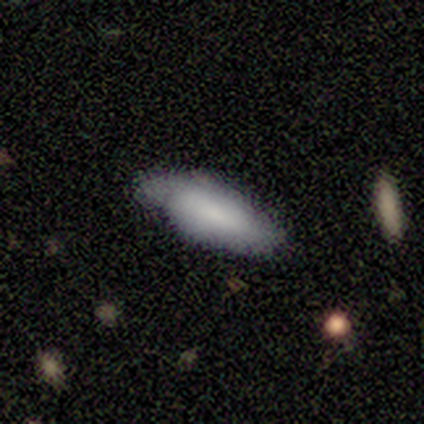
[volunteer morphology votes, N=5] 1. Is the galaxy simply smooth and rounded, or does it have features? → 60% smooth, 40% featured or disk, 0% star or artifact.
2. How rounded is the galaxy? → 67% in between, 33% cigar-shaped, 0% round.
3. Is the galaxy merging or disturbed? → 80% none, 20% major disturbance, 0% minor disturbance, 0% merger.